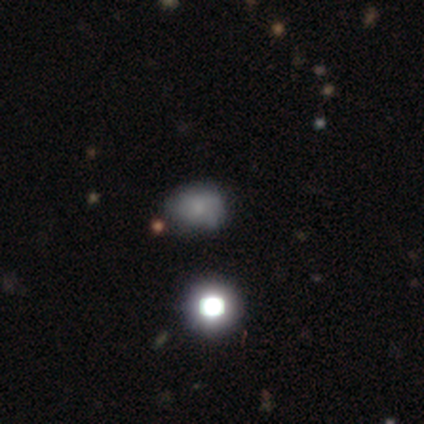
smooth_or_featured: smooth (p=0.80) [alt: featured or disk p=0.20]
how_rounded: in between (p=1.00)
merging: none (p=0.80) [alt: merger p=0.20]